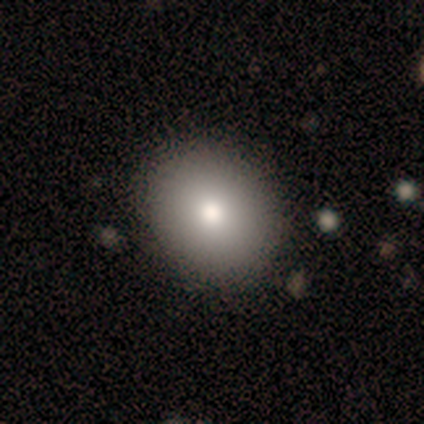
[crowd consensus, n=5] Smooth or featured: smooth — 80% (featured or disk — 20%)
How rounded: round — 100%
Merging: none — 60% (minor disturbance — 20%)